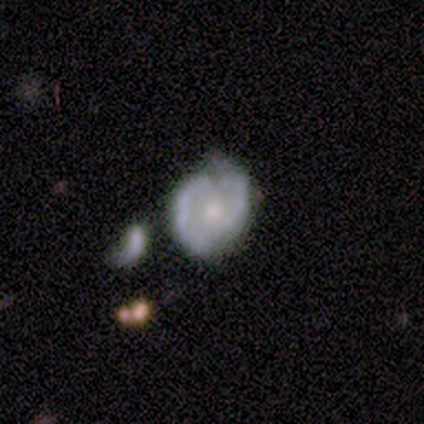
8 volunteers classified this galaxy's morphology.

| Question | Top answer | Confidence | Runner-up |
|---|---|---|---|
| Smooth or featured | featured or disk | 50% | smooth (25%) |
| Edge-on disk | no | 100% | — |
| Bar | weak | 50% | strong (25%) |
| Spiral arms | yes | 75% | no (25%) |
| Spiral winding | tight | 67% | medium (33%) |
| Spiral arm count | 2 | 100% | — |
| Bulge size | dominant | 25% | tied: moderate (25%), small (25%), none (25%) |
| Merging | minor disturbance | 67% | none (17%) |